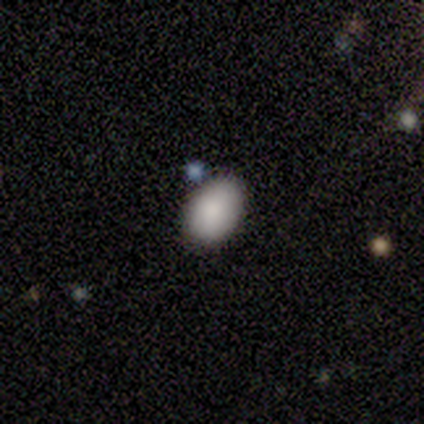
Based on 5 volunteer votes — A smooth galaxy with no disk features (100%) that is in between round and cigar-shaped (100%). Merging: none (80%).